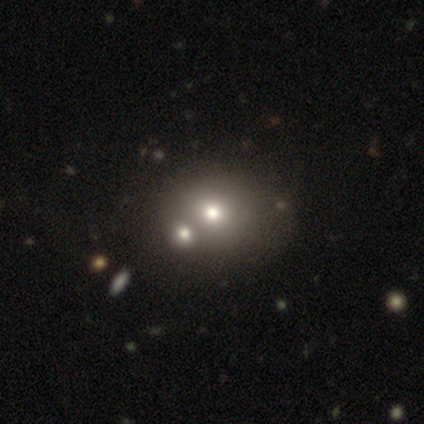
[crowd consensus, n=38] Smooth or featured?
  - smooth: 71% *
  - featured or disk: 21%
  - star or artifact: 8%
How rounded?
  - round: 74% *
  - in between: 26%
  - cigar-shaped: 0%
Merging?
  - merger: 46% *
  - none: 34%
  - major disturbance: 6%
  - minor disturbance: 3%